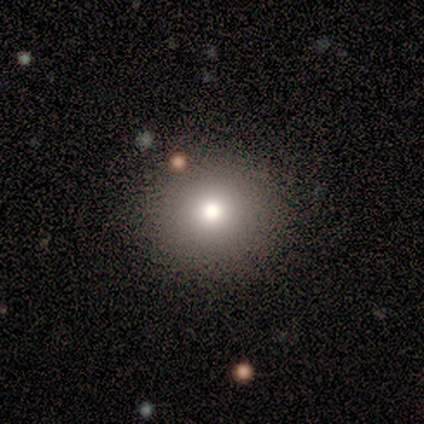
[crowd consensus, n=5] Volunteers were most divided on "how rounded": round: 80%, in between: 20%, cigar-shaped: 0%. More confident: smooth or featured — smooth (100%); merging — none (100%).